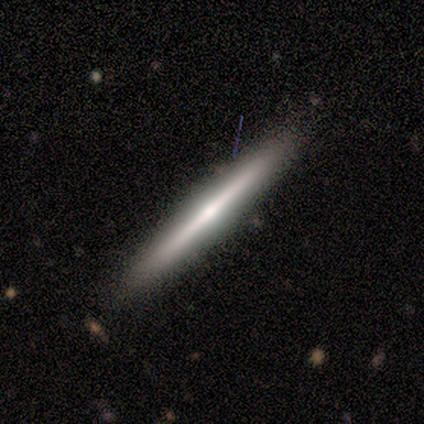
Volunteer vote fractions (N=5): Volunteers were most divided on "smooth or featured": featured or disk: 60%, smooth: 40%, star or artifact: 0%. More confident: edge-on disk — yes (100%); merging — none (100%); edge-on bulge — none (67%).